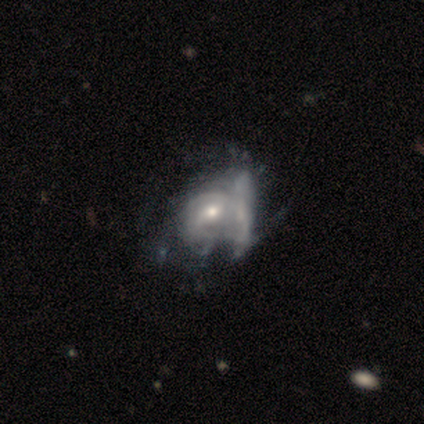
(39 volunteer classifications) smooth_or_featured: featured or disk (p=0.85) [alt: smooth p=0.10]
disk_edge_on: no (p=1.00)
bar: weak (p=0.52) [alt: no p=0.39]
has_spiral_arms: yes (p=0.76) [alt: no p=0.24]
spiral_winding: tight (p=0.48) [alt: medium p=0.40]
spiral_arm_count: can't tell (p=0.52) [alt: 2 p=0.32]
bulge_size: moderate (p=0.67) [alt: small p=0.30]
merging: merger (p=0.35) [alt: major disturbance p=0.16]